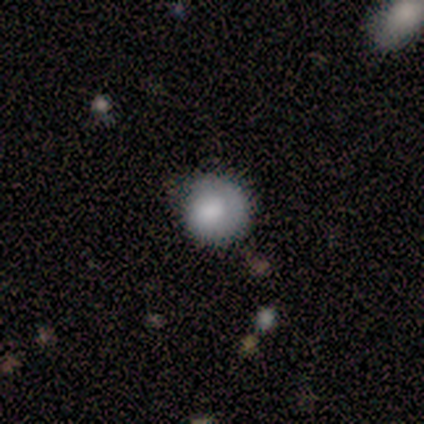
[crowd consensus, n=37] This is likely a smooth galaxy (65%). How rounded: clearly round (100%). Merging: likely none (69%).